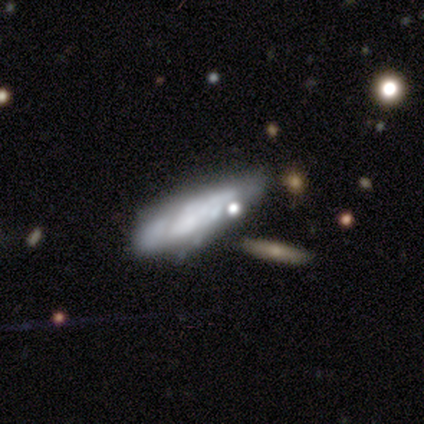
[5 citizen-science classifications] Smooth or featured? smooth (60%)
How rounded? in between (67%)
Merging? major disturbance (60%)